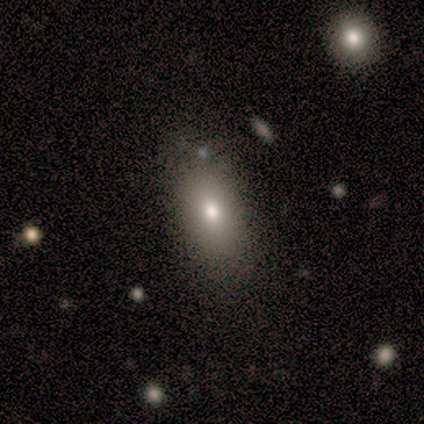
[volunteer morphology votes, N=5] smooth 100%, featured or disk 0%, star or artifact 0%. Down the decision tree: how rounded — in between (100%); merging — none (80%).